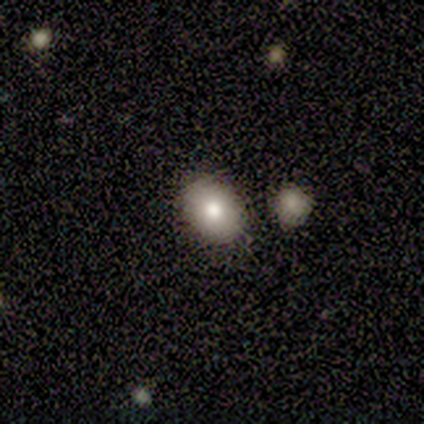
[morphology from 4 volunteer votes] Overall: featured or disk (75%). Edge-on disk: no (100%). Bar: no (67%; weak 33%). Spiral arms: no (100%). Bulge size: moderate (67%; large 33%). Merging: none (100%).